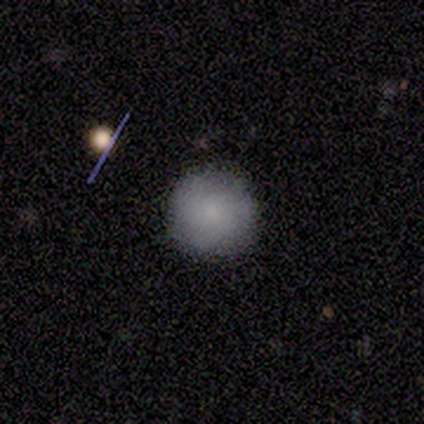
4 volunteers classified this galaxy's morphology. This is likely a smooth galaxy (75%). How rounded: likely round (67%). Merging: possibly none (50%, tied with minor disturbance).